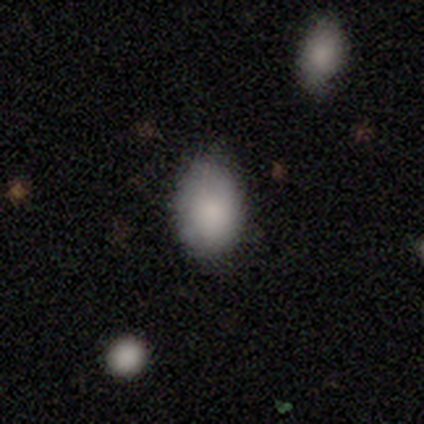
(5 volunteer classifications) Overall: smooth (100%). How rounded: in between (60%; round 40%). Merging: none (80%).